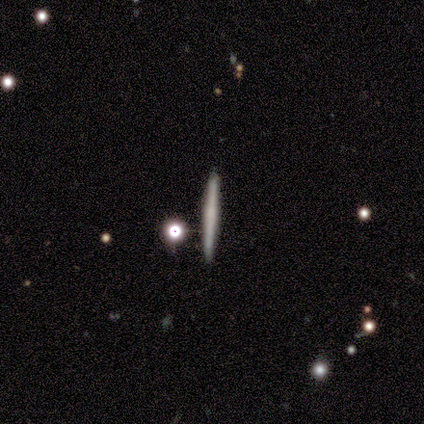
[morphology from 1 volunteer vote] type=featured or disk (100%); edge-on=yes (100%); edge-on bulge=none (100%); merging=none (100%).